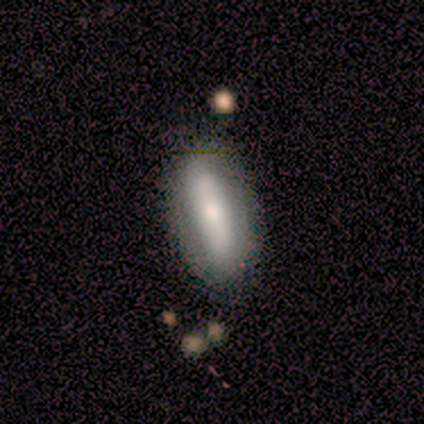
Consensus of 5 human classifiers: Volunteers were most divided on "smooth or featured" (2-way tie): smooth: 40%, featured or disk: 40%, star or artifact: 20%. More confident: how rounded — cigar-shaped (100%); merging — none (75%).